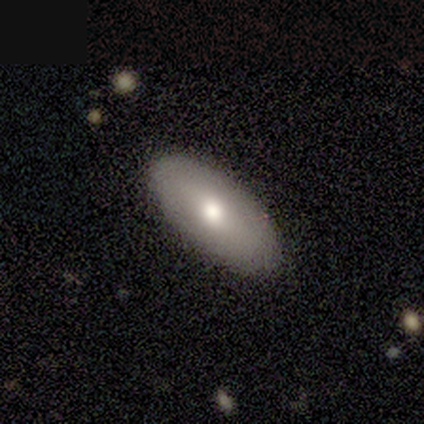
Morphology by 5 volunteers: type=smooth (40%, tied with featured or disk); roundness=in between (100%); merging=none (100%).